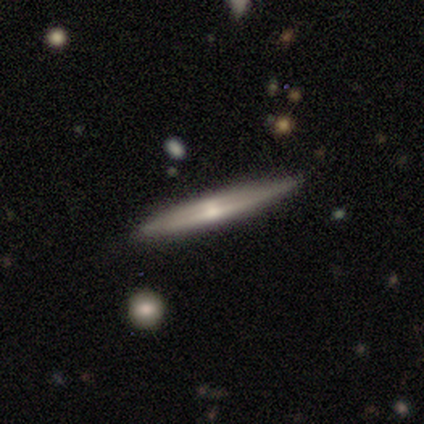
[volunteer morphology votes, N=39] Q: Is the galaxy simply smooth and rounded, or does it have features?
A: featured or disk — 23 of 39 (59%).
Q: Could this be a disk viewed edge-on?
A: yes — 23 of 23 (100%).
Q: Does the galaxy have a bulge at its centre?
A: rounded — 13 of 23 (57%).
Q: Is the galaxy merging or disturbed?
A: none — 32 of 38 (84%).